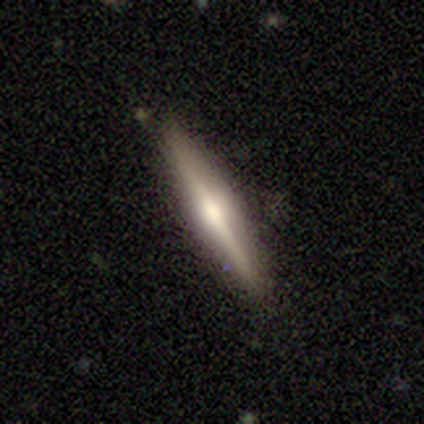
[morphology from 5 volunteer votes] Volunteers were most divided on "edge-on bulge": rounded: 75%, boxy: 25%, none: 0%. More confident: edge-on disk — yes (100%); merging — none (100%); smooth or featured — featured or disk (80%).